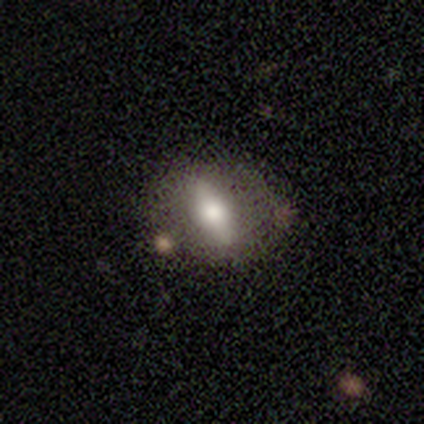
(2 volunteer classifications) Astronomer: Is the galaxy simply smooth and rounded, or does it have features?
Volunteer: featured or disk — 100%.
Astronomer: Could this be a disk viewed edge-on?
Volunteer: yes — 50%, tied with no at 50%.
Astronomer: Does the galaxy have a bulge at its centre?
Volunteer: rounded — 100%.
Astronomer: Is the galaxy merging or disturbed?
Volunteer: none — 100%.